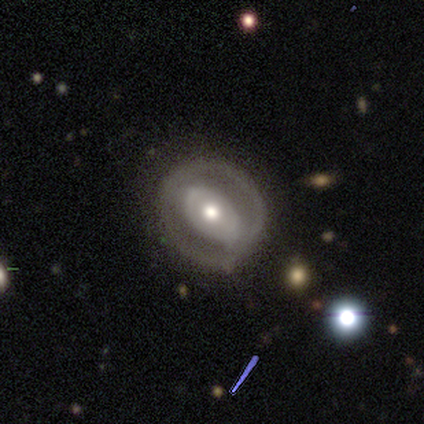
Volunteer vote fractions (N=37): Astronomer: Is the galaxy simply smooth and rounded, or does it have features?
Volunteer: featured or disk — 84%.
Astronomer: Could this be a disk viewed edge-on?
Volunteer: no — 90%.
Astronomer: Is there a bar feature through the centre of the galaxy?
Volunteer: no — 71%.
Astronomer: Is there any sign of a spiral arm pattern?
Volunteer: no — 75%.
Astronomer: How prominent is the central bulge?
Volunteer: moderate — 64%.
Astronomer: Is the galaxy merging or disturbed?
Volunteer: none — 75%.